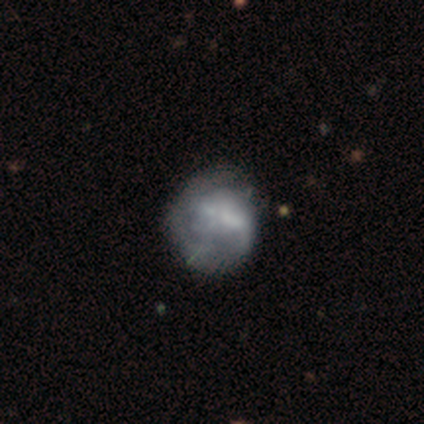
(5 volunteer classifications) A featured or disk galaxy (60%) with no bar (67%), 1 (67%) tight (67%) spiral arms (100%) and no central bulge (100%). Merging: none (40%, tied with major disturbance).